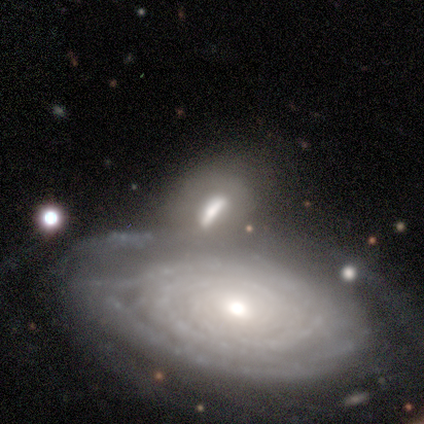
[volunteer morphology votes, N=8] This is likely a featured or disk galaxy (75%). It is clearly not viewed edge-on (100%). Bar: likely no (67%). Spiral arm pattern: clearly yes (83%). Spiral arm count: likely can't tell (60%). Spiral winding: clearly tight (100%). Central bulge: likely moderate (67%). Merging: marginally none (38%, tied with merger).